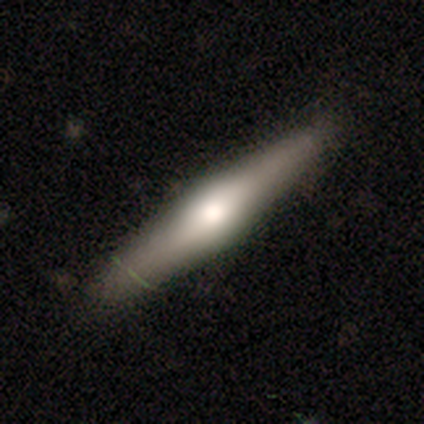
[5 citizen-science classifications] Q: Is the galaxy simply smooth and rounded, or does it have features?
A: smooth — 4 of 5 (80%).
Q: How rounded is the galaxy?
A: cigar-shaped — 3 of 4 (75%).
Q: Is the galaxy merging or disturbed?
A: none — 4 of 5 (80%).